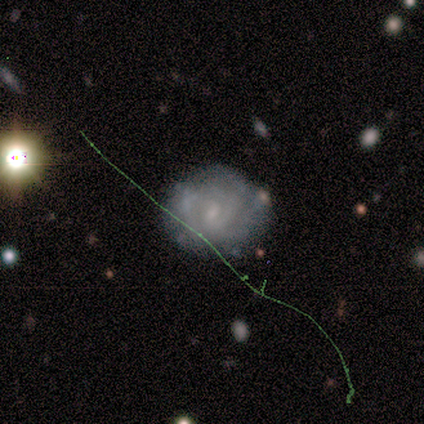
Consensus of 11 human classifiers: Smooth or featured?
  - featured or disk: 55% *
  - star or artifact: 27%
  - smooth: 18%
Edge-on disk?
  - no: 100% *
  - yes: 0%
Bar?
  - weak: 50% * (tied)
  - no: 50% * (tied)
  - strong: 0%
Spiral arms?
  - yes: 100% *
  - no: 0%
Spiral winding?
  - medium: 50% *
  - tight: 33%
  - loose: 17%
Spiral arm count?
  - can't tell: 50% *
  - 4: 33%
  - 1: 17%
  - 2: 0%
  - 3: 0%
  - more than 4: 0%
Bulge size?
  - small: 67% *
  - moderate: 17%
  - none: 17%
  - dominant: 0%
  - large: 0%
Merging?
  - none: 62% *
  - minor disturbance: 38%
  - major disturbance: 0%
  - merger: 0%